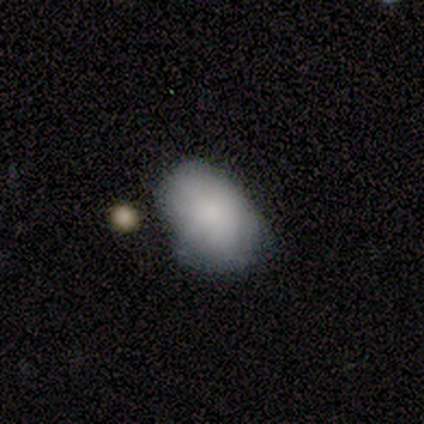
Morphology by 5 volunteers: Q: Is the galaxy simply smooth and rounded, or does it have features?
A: smooth — 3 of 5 (60%).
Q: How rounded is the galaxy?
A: in between — 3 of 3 (100%).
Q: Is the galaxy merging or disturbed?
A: none — 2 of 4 (50%, tied with minor disturbance).